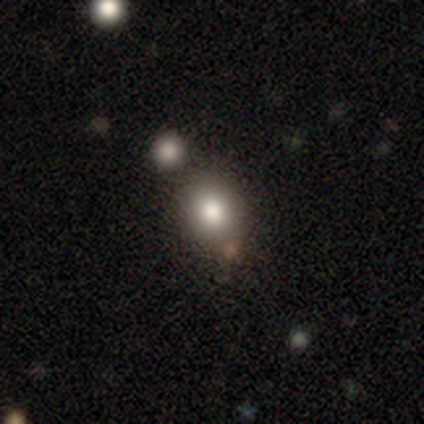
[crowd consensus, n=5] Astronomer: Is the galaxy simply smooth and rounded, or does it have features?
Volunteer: smooth — 80%.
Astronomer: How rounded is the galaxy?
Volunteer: round — 50%, tied with in between at 50%.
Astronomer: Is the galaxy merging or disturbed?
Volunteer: none — 60%.